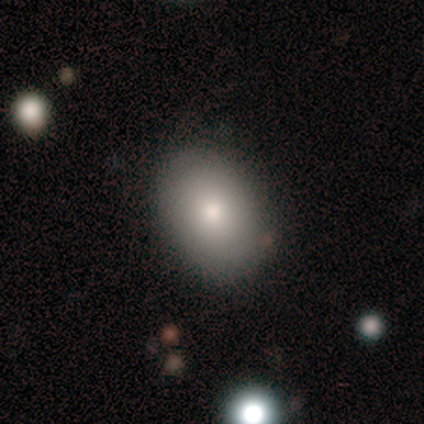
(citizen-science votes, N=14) A smooth galaxy with no disk features (93%) that is in between round and cigar-shaped (77%). Merging: none (93%).